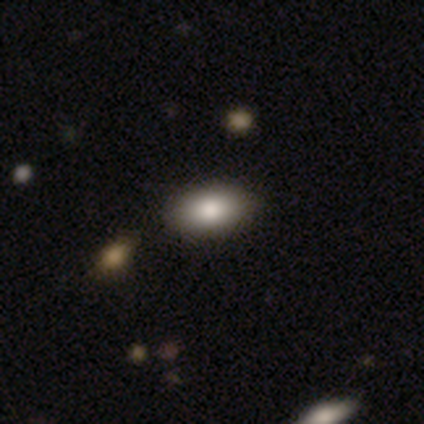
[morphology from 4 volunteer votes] Volunteers were most divided on "how rounded": in between: 75%, cigar-shaped: 25%, round: 0%. More confident: smooth or featured — smooth (100%); merging — none (100%).